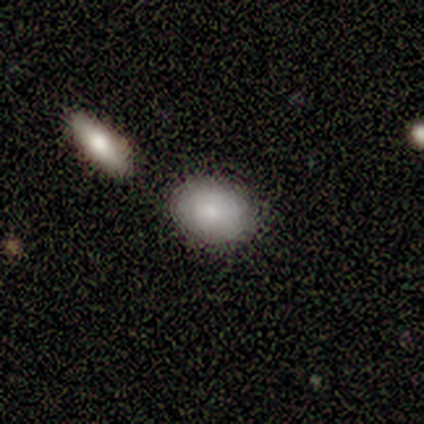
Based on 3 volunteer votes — Smooth or featured? smooth (100%)
How rounded? round (67%)
Merging? none (67%)